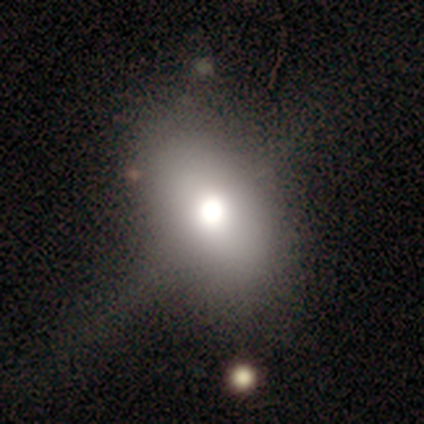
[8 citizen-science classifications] Volunteers were most divided on "smooth or featured": smooth: 75%, featured or disk: 12%, star or artifact: 12%. More confident: how rounded — in between (100%); merging — none (86%).